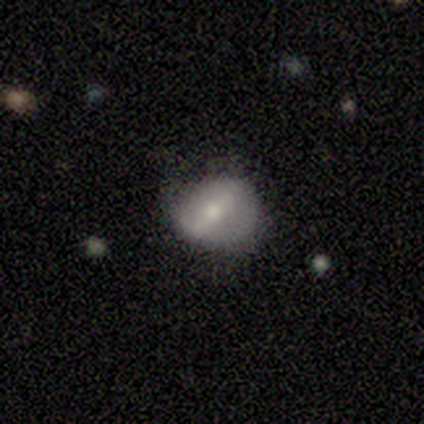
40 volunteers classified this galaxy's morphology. Smooth or featured?
  - featured or disk: 57% *
  - smooth: 40%
  - star or artifact: 2%
Edge-on disk?
  - no: 83% *
  - yes: 17%
Bar?
  - weak: 53% *
  - strong: 42%
  - no: 5%
Spiral arms?
  - no: 63% *
  - yes: 37%
Bulge size?
  - small: 53% *
  - moderate: 37%
  - large: 5%
  - none: 5%
  - dominant: 0%
Merging?
  - none: 69% *
  - minor disturbance: 28%
  - major disturbance: 3%
  - merger: 0%